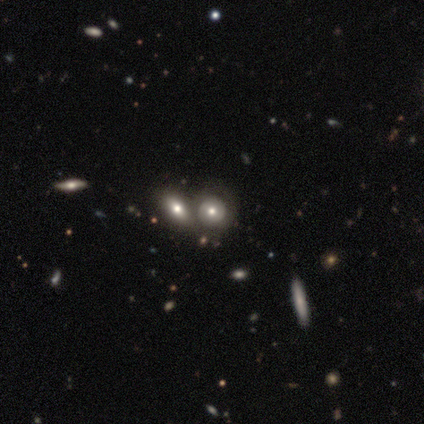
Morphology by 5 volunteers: Smooth or featured? smooth (80%)
How rounded? round (100%)
Merging? none (60%)